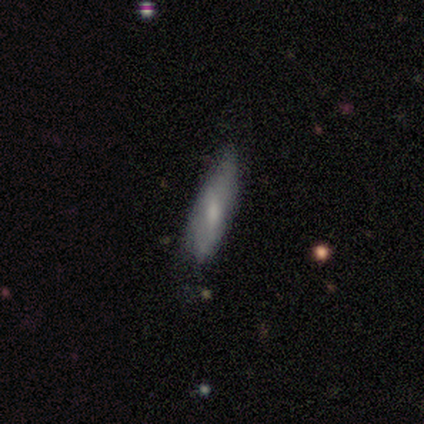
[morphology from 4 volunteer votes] type=smooth (50%); roundness=in between (50%, tied with cigar-shaped); merging=none (33%, tied with minor disturbance and merger).